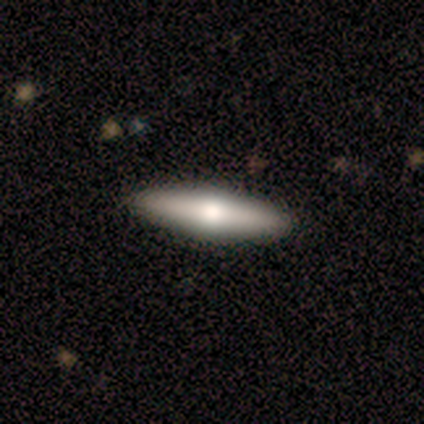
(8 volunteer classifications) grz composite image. It shows a featured or disk galaxy (62%) viewed edge-on (80%) with a rounded central bulge (100%). Merging: none (88%).